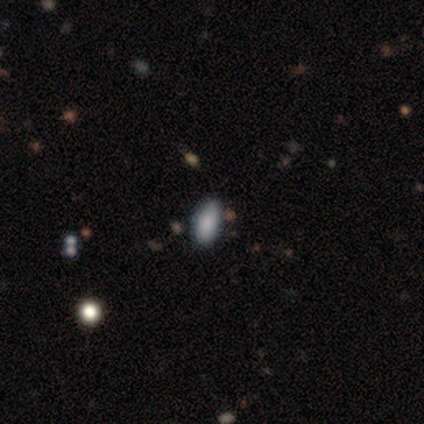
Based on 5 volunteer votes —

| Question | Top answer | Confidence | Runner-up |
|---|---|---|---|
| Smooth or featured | smooth | 80% | star or artifact (20%) |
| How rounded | in between | 100% | — |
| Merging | none | 75% | minor disturbance (25%) |